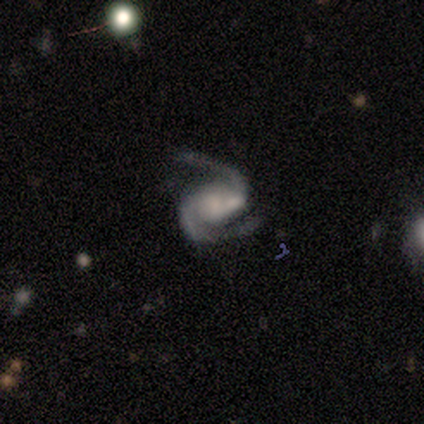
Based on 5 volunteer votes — This appears to be a featured or disk galaxy (100%) with no bar (100%), 2 (100%) medium (60%) spiral arms (100%) and a moderate central bulge (40%). Merging: none (60%).